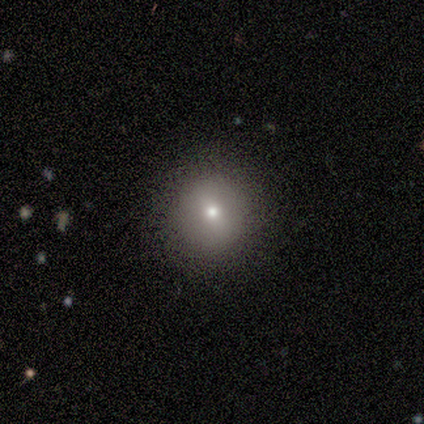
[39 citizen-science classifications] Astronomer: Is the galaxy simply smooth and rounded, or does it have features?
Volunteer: smooth — 56%.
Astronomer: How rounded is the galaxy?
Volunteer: round — 100%.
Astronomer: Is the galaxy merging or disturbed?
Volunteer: none — 86%.